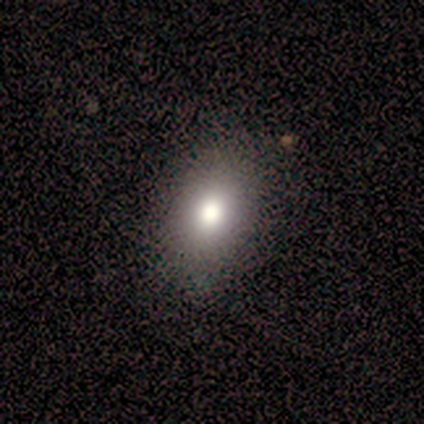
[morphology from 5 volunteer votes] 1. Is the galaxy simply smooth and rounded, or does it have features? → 80% smooth, 20% star or artifact, 0% featured or disk.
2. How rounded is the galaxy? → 100% in between, 0% round, 0% cigar-shaped.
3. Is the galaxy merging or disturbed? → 75% none, 25% major disturbance, 0% minor disturbance, 0% merger.